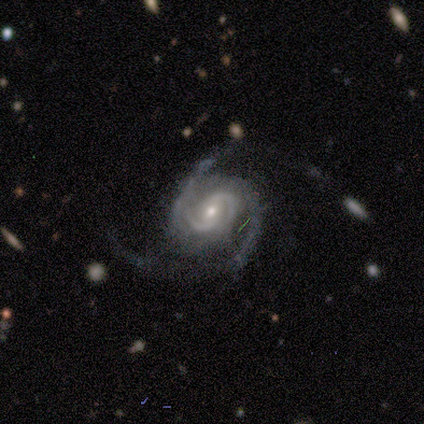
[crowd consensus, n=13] Smooth or featured? featured or disk (100%)
Edge-on disk? no (100%)
Bar? no (69%)
Spiral arms? yes (92%)
Spiral winding? tight (50%)
Spiral arm count? 2 (92%)
Bulge size? small (62%)
Merging? none (69%)